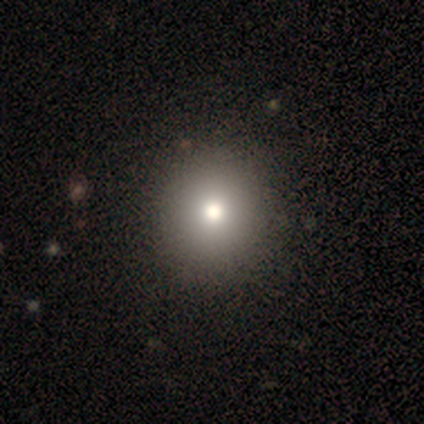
Volunteers were most divided on "smooth or featured" (2-way tie): smooth: 50%, star or artifact: 50%, featured or disk: 0%; "how rounded" (2-way tie): round: 50%, in between: 50%, cigar-shaped: 0%; "merging" (2-way tie): none: 50%, minor disturbance: 50%, major disturbance: 0%, merger: 0%.